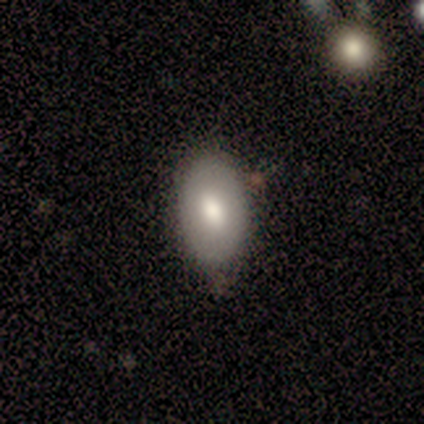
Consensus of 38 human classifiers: Q: Smooth or featured?
A: smooth (68%); runner-up: featured or disk (24%)
Q: How rounded?
A: in between (85%); runner-up: cigar-shaped (12%)
Q: Merging?
A: none (69%); runner-up: minor disturbance (29%)